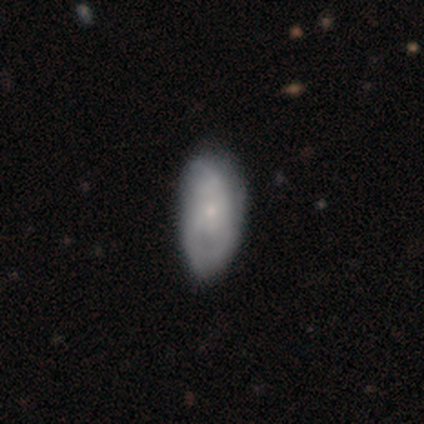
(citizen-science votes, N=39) Q: Smooth or featured?
A: featured or disk (51%); runner-up: smooth (46%)
Q: Edge-on disk?
A: no (100%)
Q: Bar?
A: no (90%); runner-up: strong (5%)
Q: Spiral arms?
A: yes (65%); runner-up: no (35%)
Q: Spiral winding?
A: tight (38%); tied with: medium (38%)
Q: Spiral arm count?
A: can't tell (62%); runner-up: 2 (23%)
Q: Bulge size?
A: small (70%); runner-up: moderate (25%)
Q: Merging?
A: none (29%); runner-up: minor disturbance (26%)